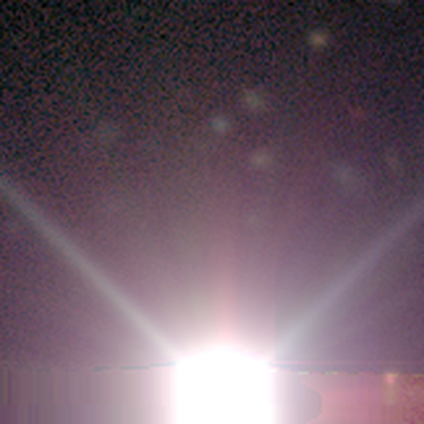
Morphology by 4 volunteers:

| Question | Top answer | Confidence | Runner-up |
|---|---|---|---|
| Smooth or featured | star or artifact | 100% | — |